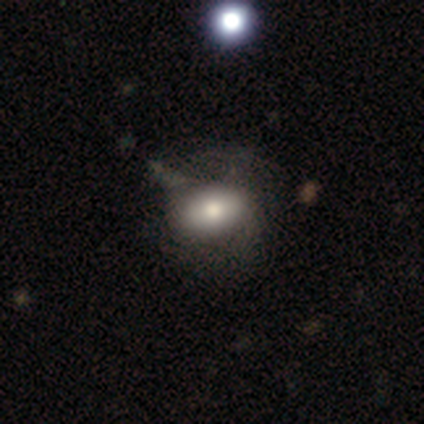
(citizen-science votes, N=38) Morphology: type=smooth (68%); roundness=in between (85%); merging=none (29%).